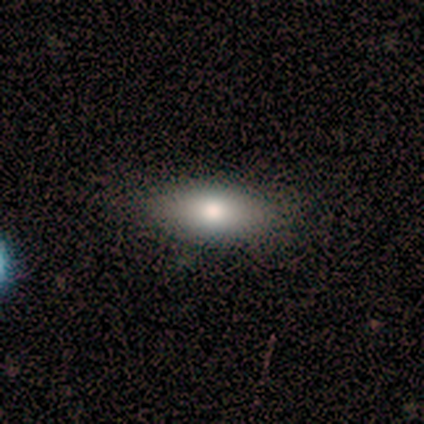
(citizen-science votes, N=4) Smooth or featured?
  - smooth: 75% *
  - star or artifact: 25%
  - featured or disk: 0%
How rounded?
  - in between: 100% *
  - round: 0%
  - cigar-shaped: 0%
Merging?
  - none: 67% *
  - minor disturbance: 33%
  - major disturbance: 0%
  - merger: 0%